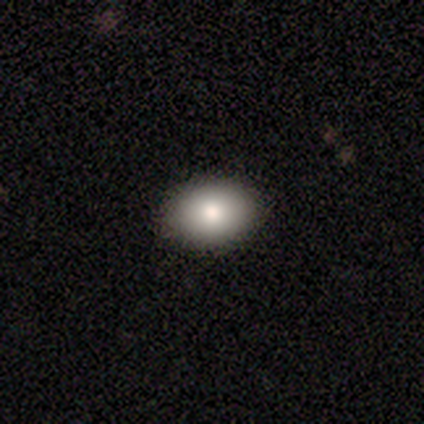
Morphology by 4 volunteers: Consensus on every question: smooth or featured — smooth (100%); how rounded — in between (100%); merging — none (100%).